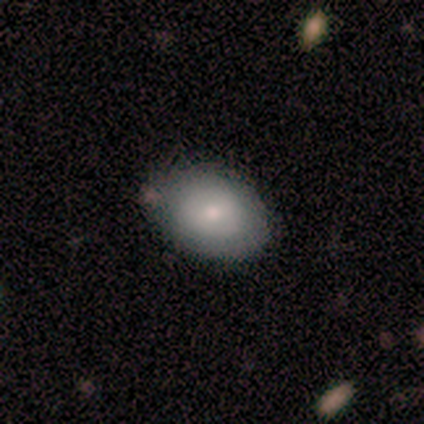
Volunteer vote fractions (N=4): A smooth galaxy with no disk features (100%) that is in between round and cigar-shaped (75%).

Vote fractions:
- Smooth or featured? smooth: 100% / featured or disk: 0% / star or artifact: 0%
- How rounded? in between: 75% / round: 25% / cigar-shaped: 0%
- Merging? none: 100% / minor disturbance: 0% / major disturbance: 0% / merger: 0%